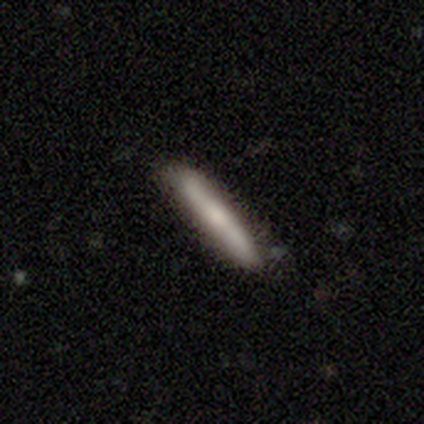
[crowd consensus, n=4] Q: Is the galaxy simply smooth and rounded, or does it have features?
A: smooth — 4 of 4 (100%).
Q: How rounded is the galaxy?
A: cigar-shaped — 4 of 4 (100%).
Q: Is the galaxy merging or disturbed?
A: none — 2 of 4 (50%, tied with minor disturbance).